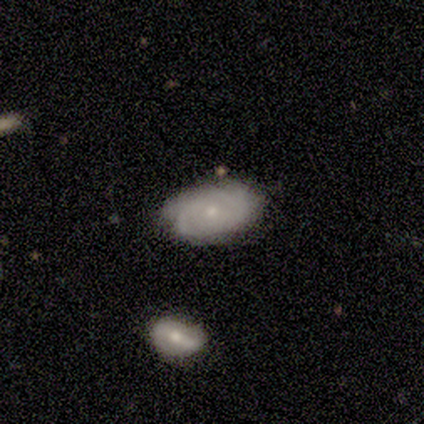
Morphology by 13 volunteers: Q: Smooth or featured?
A: featured or disk (69%); runner-up: smooth (31%)
Q: Edge-on disk?
A: no (100%)
Q: Bar?
A: no (78%); runner-up: weak (22%)
Q: Spiral arms?
A: yes (89%); runner-up: no (11%)
Q: Spiral winding?
A: tight (62%); runner-up: medium (38%)
Q: Spiral arm count?
A: can't tell (38%); runner-up: 2 (25%)
Q: Bulge size?
A: small (78%); runner-up: moderate (22%)
Q: Merging?
A: none (69%); runner-up: minor disturbance (23%)